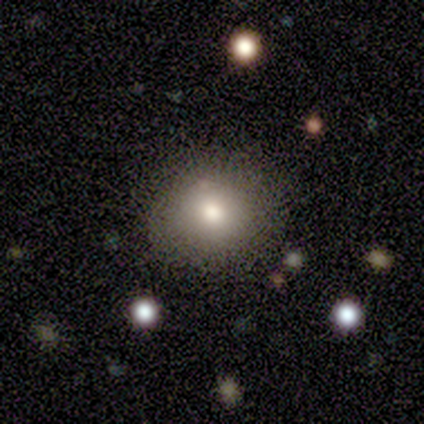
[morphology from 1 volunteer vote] A smooth galaxy with no disk features (100%) that is round (100%).

Vote fractions:
- Smooth or featured? smooth: 100% / featured or disk: 0% / star or artifact: 0%
- How rounded? round: 100% / in between: 0% / cigar-shaped: 0%
- Merging? none: 100% / minor disturbance: 0% / major disturbance: 0% / merger: 0%